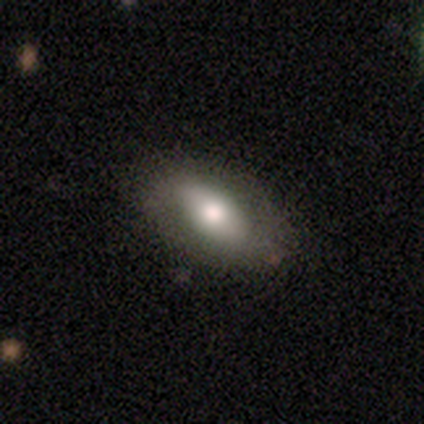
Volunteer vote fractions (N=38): Smooth or featured?
  - smooth: 66% *
  - featured or disk: 29%
  - star or artifact: 5%
How rounded?
  - in between: 96% *
  - cigar-shaped: 4%
  - round: 0%
Merging?
  - none: 86% *
  - minor disturbance: 14%
  - major disturbance: 0%
  - merger: 0%